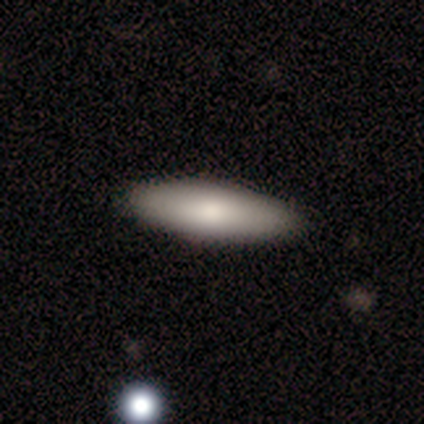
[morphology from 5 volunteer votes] smooth-or-featured: smooth: 60% | featured or disk: 40% | star or artifact: 0%
  how-rounded: in between: 67% | cigar-shaped: 33% | round: 0%
  merging: none: 100% | minor disturbance: 0% | major disturbance: 0% | merger: 0%